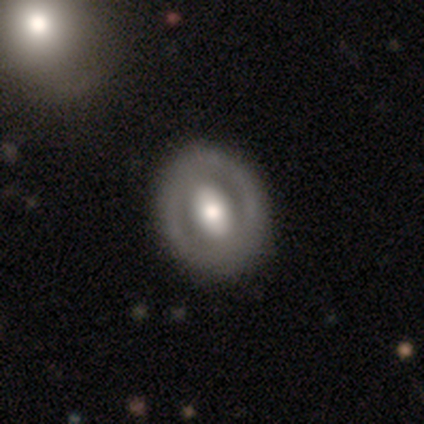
Smooth or featured? 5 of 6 (83%) said featured or disk. Edge-on disk? 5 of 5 (100%) said no. Bar? 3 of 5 (60%) said no. Spiral arms? 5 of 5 (100%) said no. Bulge size? 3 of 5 (60%) said large. Merging? 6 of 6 (100%) said none.